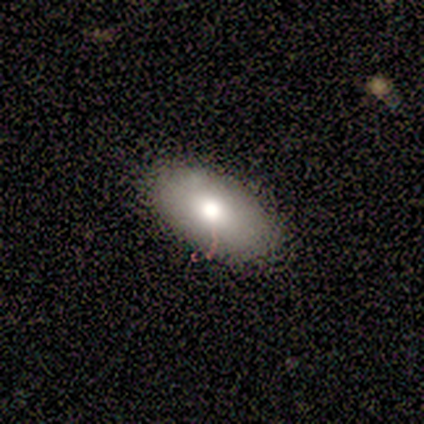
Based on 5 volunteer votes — smooth 100%, featured or disk 0%, star or artifact 0%. Down the decision tree: how rounded — in between (80%); merging — none (100%).